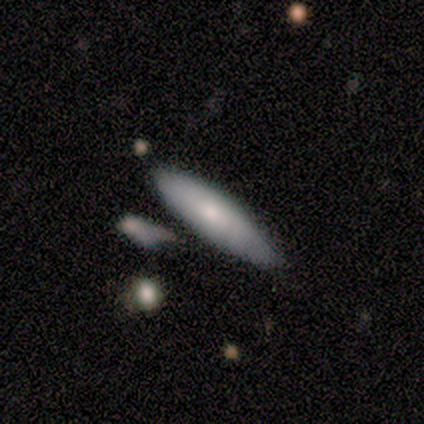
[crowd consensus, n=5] Smooth or featured? smooth (80%)
How rounded? cigar-shaped (75%)
Merging? none (100%)